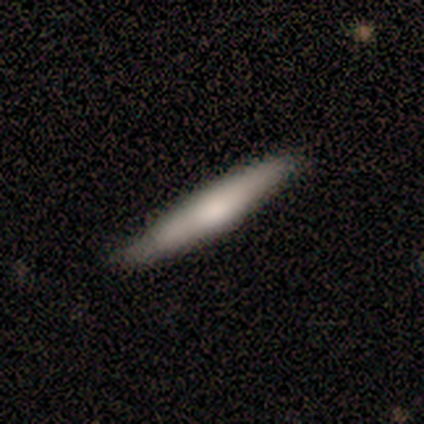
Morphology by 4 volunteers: smooth 75%, featured or disk 25%, star or artifact 0%. Down the decision tree: how rounded — cigar-shaped (100%); merging — none (100%).